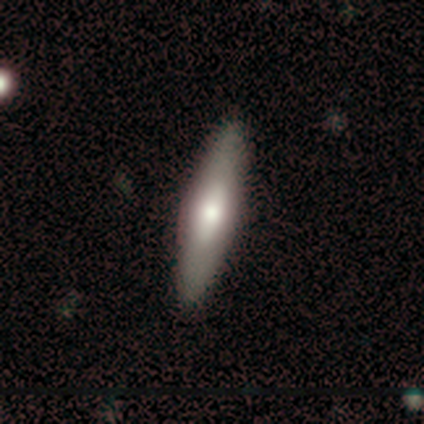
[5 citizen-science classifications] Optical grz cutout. It shows a smooth galaxy with no disk features (60%) that is cigar-shaped (100%). Merging: none (100%).